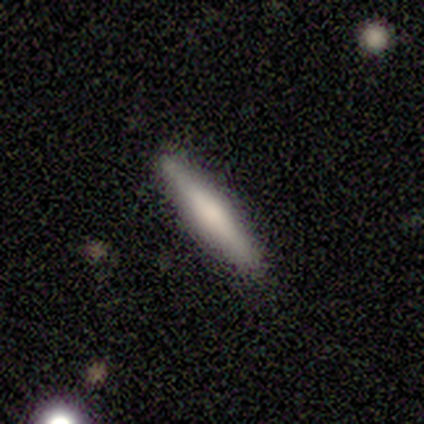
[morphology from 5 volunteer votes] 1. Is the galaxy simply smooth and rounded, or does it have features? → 40% smooth (tied), 40% featured or disk (tied), 20% star or artifact.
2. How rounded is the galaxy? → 100% cigar-shaped, 0% round, 0% in between.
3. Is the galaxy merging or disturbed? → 75% none, 25% minor disturbance, 0% major disturbance, 0% merger.